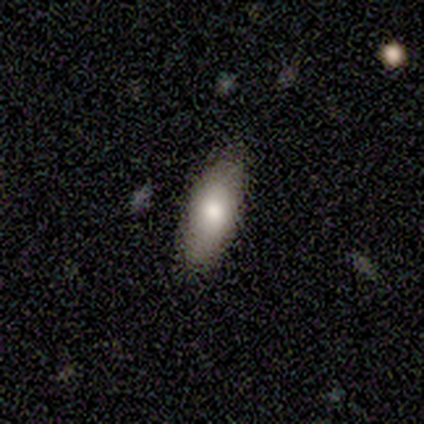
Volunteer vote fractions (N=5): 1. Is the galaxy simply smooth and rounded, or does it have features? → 80% smooth, 20% featured or disk, 0% star or artifact.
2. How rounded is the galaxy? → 75% in between, 25% cigar-shaped, 0% round.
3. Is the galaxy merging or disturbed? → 60% none, 40% minor disturbance, 0% major disturbance, 0% merger.